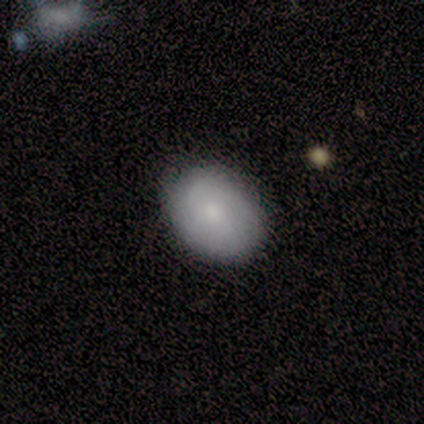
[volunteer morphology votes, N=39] Smooth or featured? 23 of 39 (59%) said smooth. How rounded? 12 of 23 (52%) said in between. Merging? 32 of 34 (94%) said none.